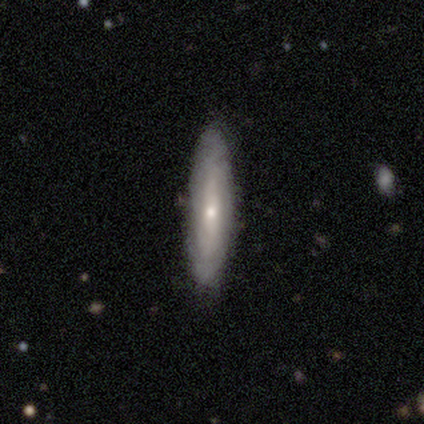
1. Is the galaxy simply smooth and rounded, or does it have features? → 60% featured or disk, 40% smooth, 0% star or artifact.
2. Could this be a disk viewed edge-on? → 100% no, 0% yes.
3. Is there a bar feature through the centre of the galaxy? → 67% weak, 33% strong, 0% no.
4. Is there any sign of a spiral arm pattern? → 67% no, 33% yes.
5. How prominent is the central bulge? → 100% small, 0% dominant, 0% large, 0% moderate, 0% none.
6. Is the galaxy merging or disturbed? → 60% none, 40% minor disturbance, 0% major disturbance, 0% merger.